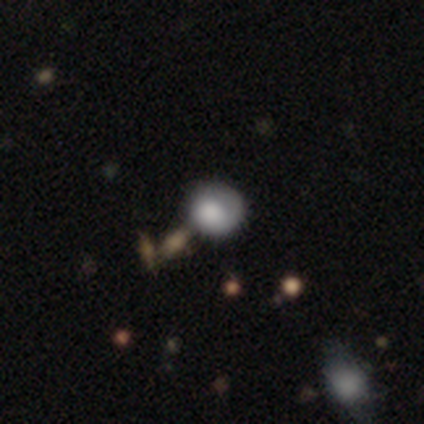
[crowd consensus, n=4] Q: Smooth or featured?
A: smooth (100%)
Q: How rounded?
A: round (75%); runner-up: in between (25%)
Q: Merging?
A: minor disturbance (75%); runner-up: none (25%)